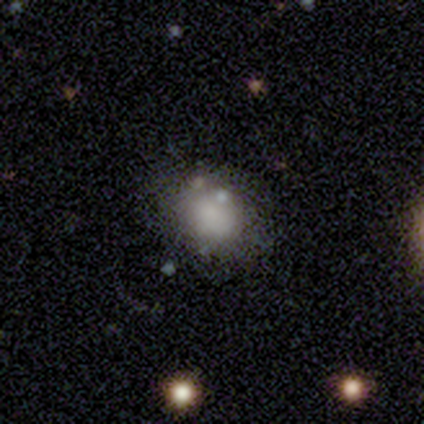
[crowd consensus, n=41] Q: Smooth or featured?
A: smooth (78%); runner-up: star or artifact (12%)
Q: How rounded?
A: round (53%); runner-up: in between (47%)
Q: Merging?
A: none (67%); runner-up: minor disturbance (22%)